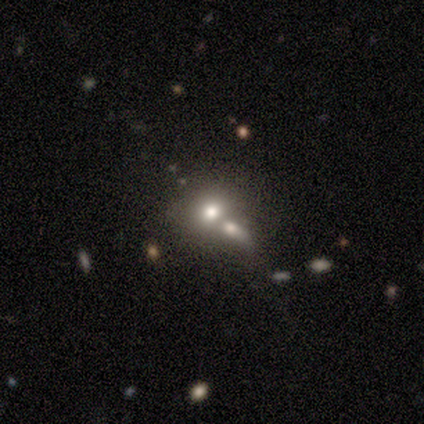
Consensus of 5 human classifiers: A smooth galaxy with no disk features (80%) that is round (50%, tied with in between).

Vote fractions:
- Smooth or featured? smooth: 80% / featured or disk: 20% / star or artifact: 0%
- How rounded? round: 50% (tied) / in between: 50% (tied) / cigar-shaped: 0%
- Merging? merger: 100% / none: 0% / minor disturbance: 0% / major disturbance: 0%